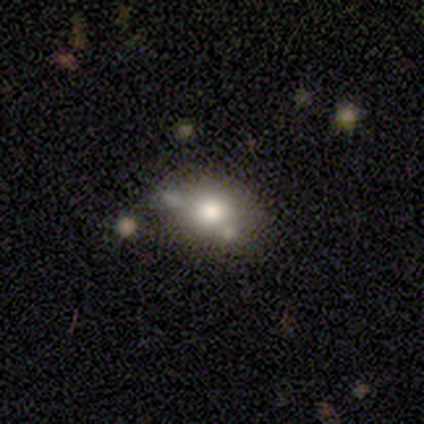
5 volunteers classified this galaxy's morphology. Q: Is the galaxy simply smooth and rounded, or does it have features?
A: smooth — 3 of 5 (60%).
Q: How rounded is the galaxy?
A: in between — 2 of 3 (67%).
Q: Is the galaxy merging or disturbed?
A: minor disturbance — 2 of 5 (40%).